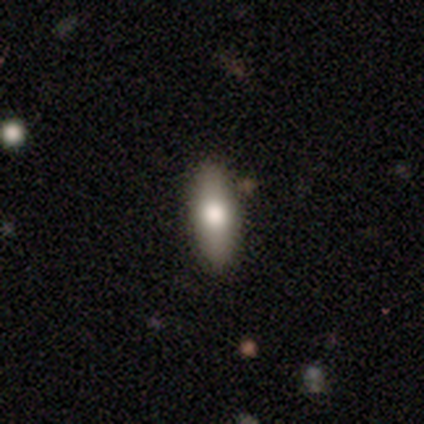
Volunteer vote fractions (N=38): smooth_or_featured: smooth (p=0.66) [alt: featured or disk p=0.29]
how_rounded: in between (p=0.52) [alt: cigar-shaped p=0.48]
merging: none (p=0.86) [alt: minor disturbance p=0.06]